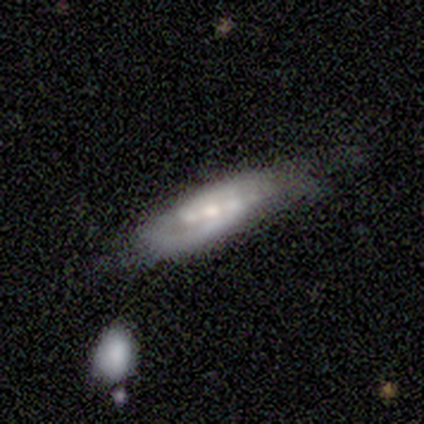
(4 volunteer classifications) smooth-or-featured: featured or disk: 75% | star or artifact: 25% | smooth: 0%
  disk-edge-on: yes: 67% | no: 33%
    edge-on-bulge: boxy: 50% (tied) | none: 50% (tied) | rounded: 0%
  merging: none: 33% (tied) | major disturbance: 33% (tied) | merger: 33% (tied) | minor disturbance: 0%